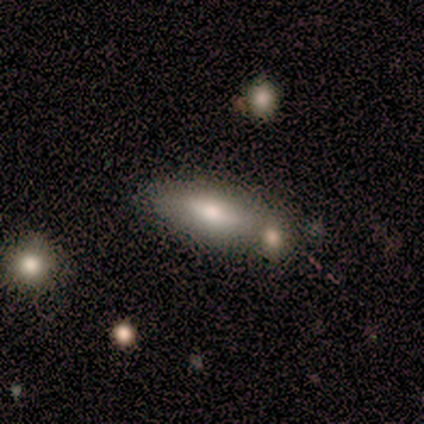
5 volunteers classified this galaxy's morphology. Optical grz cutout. It shows a smooth galaxy with no disk features (60%) that is in between round and cigar-shaped (100%). Merging: minor disturbance (50%).